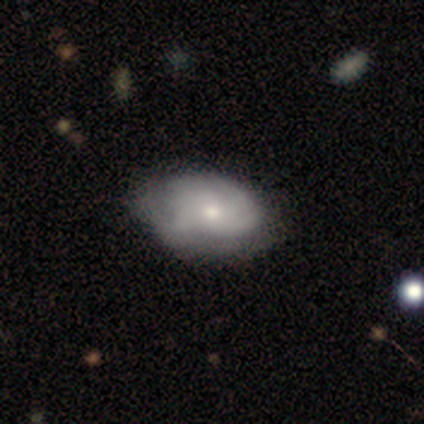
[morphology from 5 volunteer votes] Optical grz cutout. It shows a smooth galaxy with no disk features (60%) that is in between round and cigar-shaped (67%). Merging: none (60%).